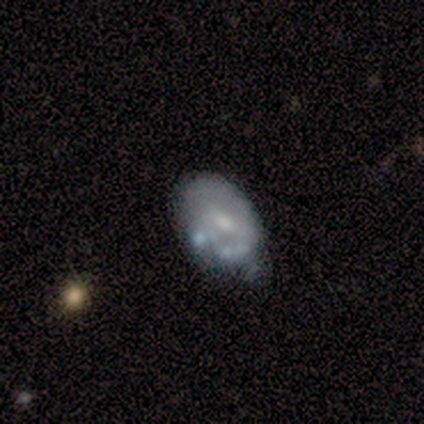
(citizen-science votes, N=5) This appears to be a featured or disk galaxy (60%) with a weak bar (100%), 1 (33%, tied with 2 and can't tell) tight (67%) spiral arms (100%) and a small central bulge (67%). Merging: minor disturbance (40%).